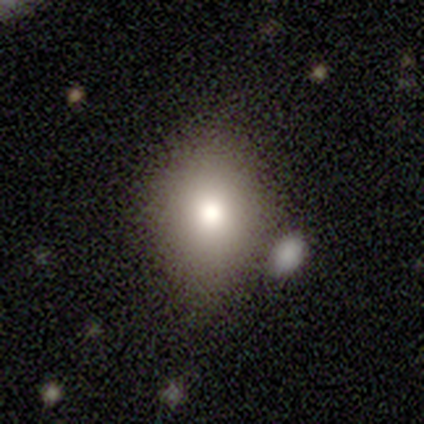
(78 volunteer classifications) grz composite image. It shows a smooth galaxy with no disk features (79%) that is in between round and cigar-shaped (55%). Merging: none (34%).